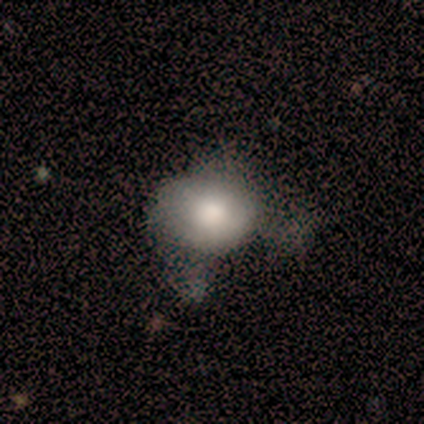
A smooth galaxy with no disk features (80%) that is round (50%, tied with in between).

Vote fractions:
- Smooth or featured? smooth: 80% / featured or disk: 20% / star or artifact: 0%
- How rounded? round: 50% (tied) / in between: 50% (tied) / cigar-shaped: 0%
- Merging? none: 40% / minor disturbance: 20% / major disturbance: 20% / merger: 20%